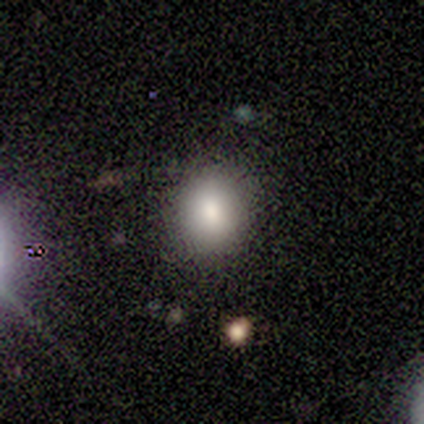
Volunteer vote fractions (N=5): Morphology: type=smooth (80%); roundness=round (75%); merging=none (100%).